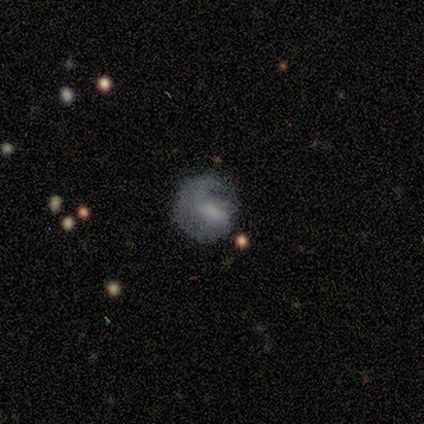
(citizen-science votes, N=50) Smooth or featured? featured or disk (48%)
Edge-on disk? no (100%)
Bar? weak (58%)
Spiral arms? yes (50%, tied with no)
Spiral winding? tight (42%, tied with medium)
Spiral arm count? 1 (58%)
Bulge size? none (38%)
Merging? none (50%)